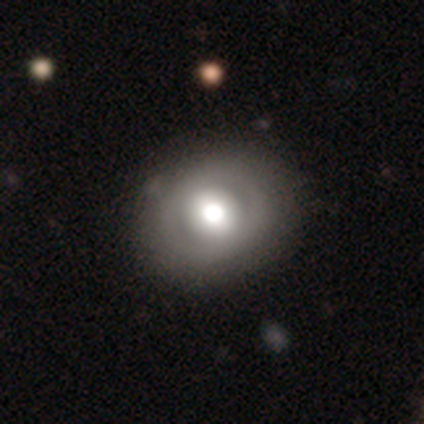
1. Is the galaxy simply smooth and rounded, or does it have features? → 69% smooth, 28% featured or disk, 3% star or artifact.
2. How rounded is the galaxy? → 78% round, 22% in between, 0% cigar-shaped.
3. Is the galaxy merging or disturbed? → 79% none, 13% minor disturbance, 5% major disturbance, 3% merger.